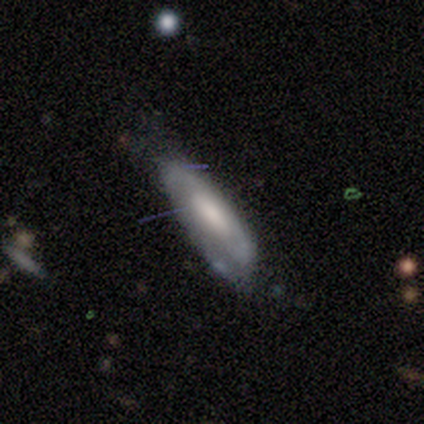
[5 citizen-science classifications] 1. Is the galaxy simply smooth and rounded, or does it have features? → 60% smooth, 40% featured or disk, 0% star or artifact.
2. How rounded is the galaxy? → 67% in between, 33% cigar-shaped, 0% round.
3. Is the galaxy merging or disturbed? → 80% none, 20% minor disturbance, 0% major disturbance, 0% merger.